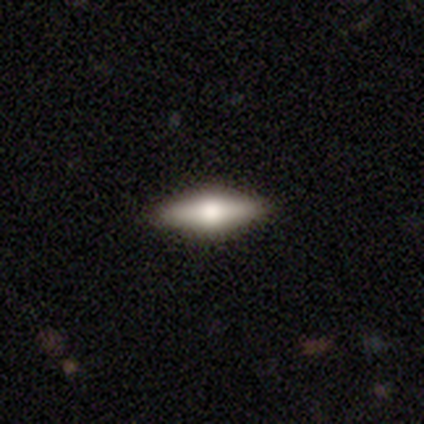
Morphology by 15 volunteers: Volunteers were most divided on "how rounded": in between: 67%, cigar-shaped: 33%, round: 0%. More confident: merging — none (93%); smooth or featured — smooth (80%).